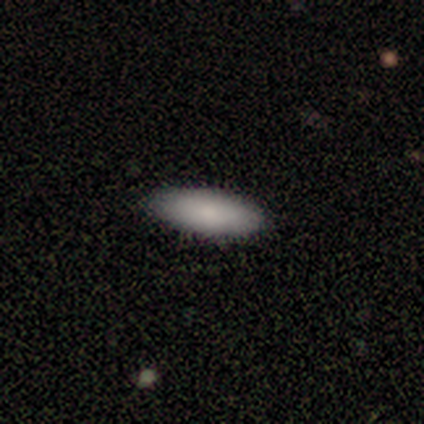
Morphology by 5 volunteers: Smooth or featured: smooth — 100%
How rounded: cigar-shaped — 60% (in between — 40%)
Merging: none — 100%